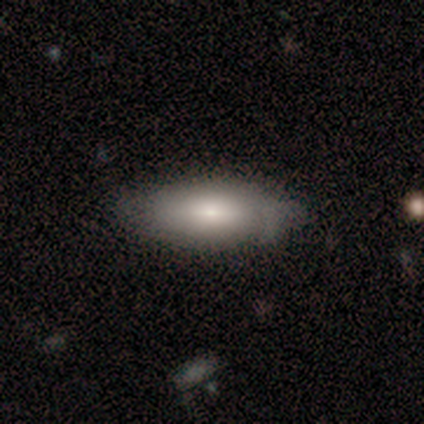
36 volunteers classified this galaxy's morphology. smooth_or_featured: smooth (p=0.61) [alt: featured or disk p=0.33]
how_rounded: in between (p=0.86) [alt: cigar-shaped p=0.14]
merging: none (p=0.62) [alt: minor disturbance p=0.35]